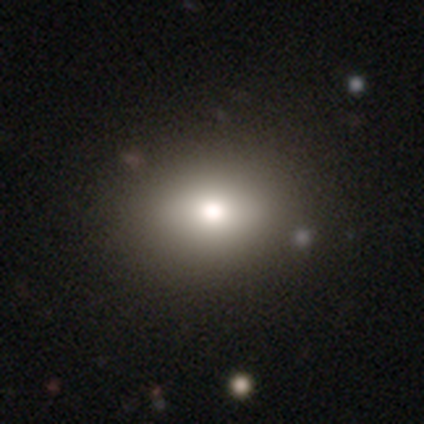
Q: Smooth or featured?
A: smooth (83%); runner-up: star or artifact (12%)
Q: How rounded?
A: in between (57%); runner-up: round (43%)
Q: Merging?
A: none (44%); runner-up: minor disturbance (4%)